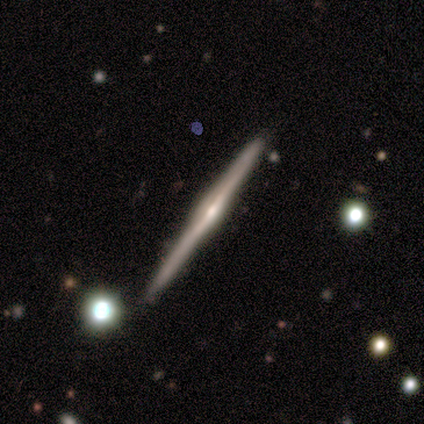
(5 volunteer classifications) This is likely a featured or disk galaxy (60%). It is clearly viewed edge-on (100%). Edge-on bulge: likely rounded (67%). Merging: clearly none (80%).